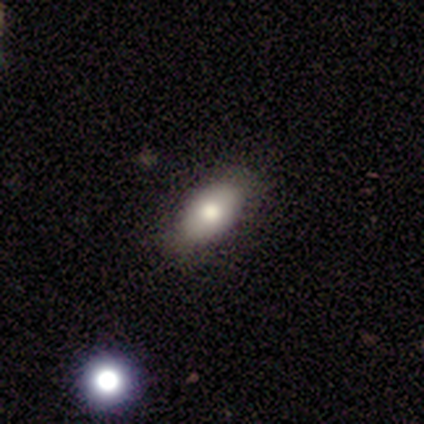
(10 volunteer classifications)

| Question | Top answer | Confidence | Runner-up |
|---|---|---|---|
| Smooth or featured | smooth | 80% | featured or disk (10%) |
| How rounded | in between | 75% | round (12%) |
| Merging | none | 78% | minor disturbance (11%) |